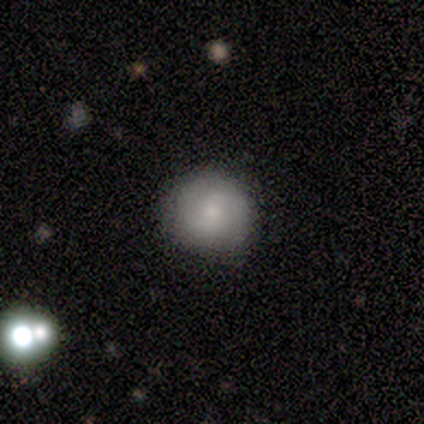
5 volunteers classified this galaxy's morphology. Smooth or featured? 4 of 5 (80%) said smooth. How rounded? 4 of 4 (100%) said round. Merging? 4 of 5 (80%) said none.